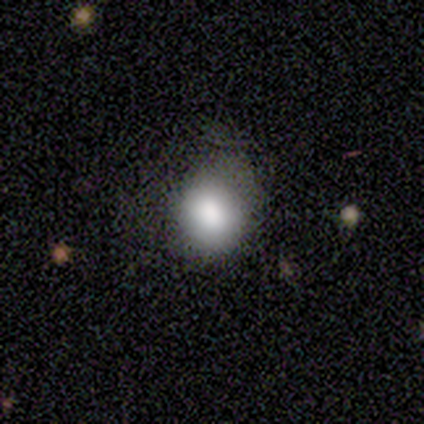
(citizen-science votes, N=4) This appears to be a smooth galaxy with no disk features (100%) that is round (75%). Merging: minor disturbance (50%).